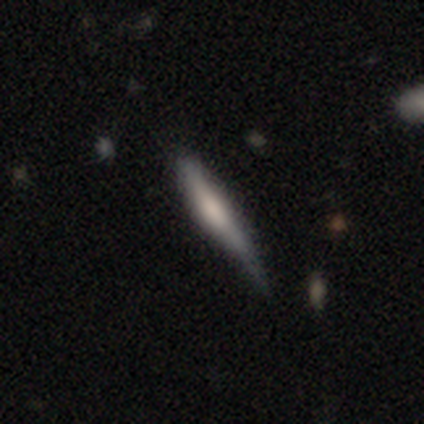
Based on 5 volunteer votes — Smooth or featured? 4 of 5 (80%) said featured or disk. Edge-on disk? 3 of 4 (75%) said yes. Edge-on bulge? 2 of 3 (67%) said rounded. Merging? 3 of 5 (60%) said minor disturbance.